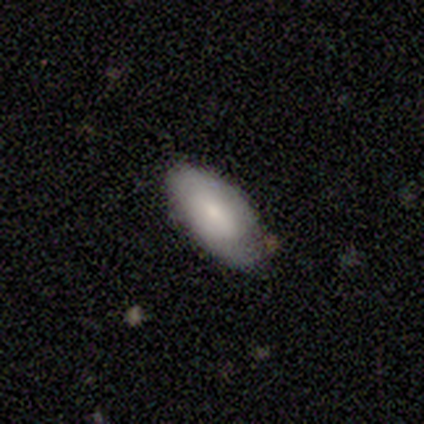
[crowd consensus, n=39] Smooth or featured? 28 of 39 (72%) said smooth. How rounded? 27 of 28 (96%) said in between. Merging? 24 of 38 (63%) said none.